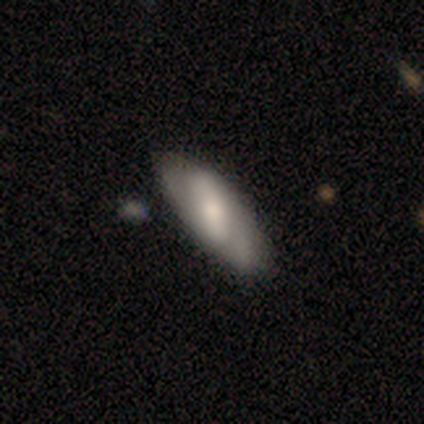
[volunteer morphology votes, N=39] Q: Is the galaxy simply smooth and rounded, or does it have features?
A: featured or disk — 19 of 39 (49%).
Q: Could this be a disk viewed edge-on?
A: no — 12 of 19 (63%).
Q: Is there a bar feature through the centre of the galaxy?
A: strong — 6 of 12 (50%).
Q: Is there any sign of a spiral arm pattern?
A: yes — 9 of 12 (75%).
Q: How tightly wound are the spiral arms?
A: loose — 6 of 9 (67%).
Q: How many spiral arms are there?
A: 2 — 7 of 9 (78%).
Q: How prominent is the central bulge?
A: moderate — 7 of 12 (58%).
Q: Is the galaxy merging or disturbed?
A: none — 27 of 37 (73%).